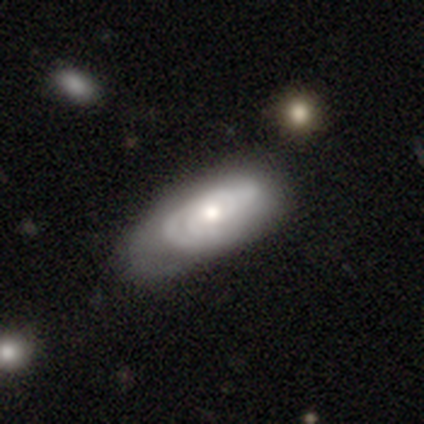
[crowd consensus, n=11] Smooth or featured?
  - featured or disk: 55% *
  - smooth: 45%
  - star or artifact: 0%
Edge-on disk?
  - no: 100% *
  - yes: 0%
Bar?
  - weak: 50% * (tied)
  - no: 50% * (tied)
  - strong: 0%
Spiral arms?
  - yes: 100% *
  - no: 0%
Spiral winding?
  - tight: 50% * (tied)
  - medium: 50% * (tied)
  - loose: 0%
Spiral arm count?
  - 2: 50% *
  - can't tell: 33%
  - 3: 17%
  - 1: 0%
  - 4: 0%
  - more than 4: 0%
Bulge size?
  - moderate: 100% *
  - dominant: 0%
  - large: 0%
  - small: 0%
  - none: 0%
Merging?
  - none: 55% *
  - minor disturbance: 36%
  - major disturbance: 9%
  - merger: 0%